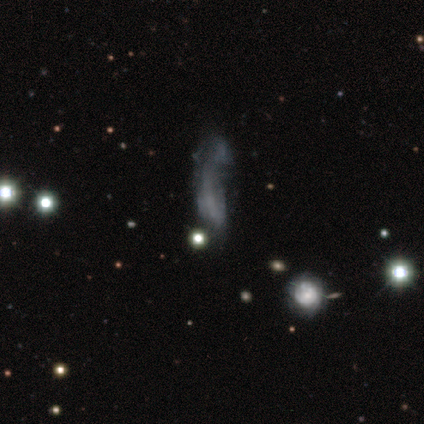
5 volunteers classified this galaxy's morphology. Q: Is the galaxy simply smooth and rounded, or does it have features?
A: star or artifact — 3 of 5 (60%).